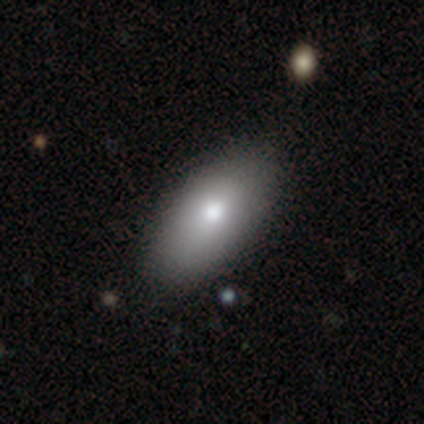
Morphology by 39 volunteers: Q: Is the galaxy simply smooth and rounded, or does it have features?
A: smooth — 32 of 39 (82%).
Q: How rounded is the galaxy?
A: in between — 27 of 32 (84%).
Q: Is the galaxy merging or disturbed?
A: none — 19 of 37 (51%).